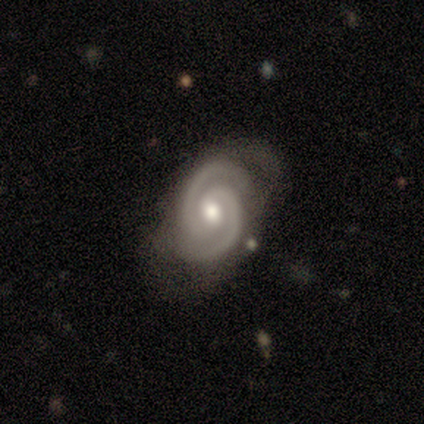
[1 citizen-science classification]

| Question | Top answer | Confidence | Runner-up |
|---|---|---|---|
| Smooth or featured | featured or disk | 100% | — |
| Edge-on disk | no | 100% | — |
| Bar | no | 100% | — |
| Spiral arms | yes | 100% | — |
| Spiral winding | medium | 100% | — |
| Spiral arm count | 2 | 100% | — |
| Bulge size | moderate | 100% | — |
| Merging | none | 100% | — |